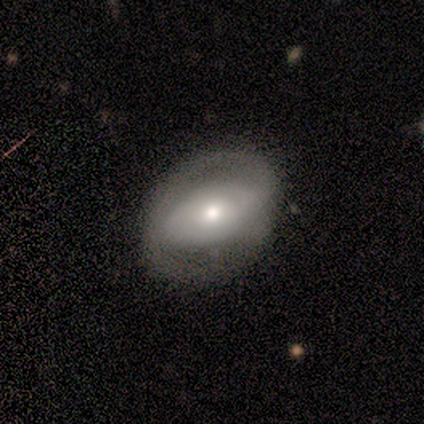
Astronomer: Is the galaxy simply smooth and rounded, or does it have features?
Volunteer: featured or disk — 80%.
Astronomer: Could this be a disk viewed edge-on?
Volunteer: no — 100%.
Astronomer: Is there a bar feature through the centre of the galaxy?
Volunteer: no — 75%.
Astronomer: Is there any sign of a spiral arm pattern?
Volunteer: yes — 75%.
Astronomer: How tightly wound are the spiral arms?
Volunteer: tight — 67%.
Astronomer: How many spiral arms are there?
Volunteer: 2 — 67%.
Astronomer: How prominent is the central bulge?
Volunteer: moderate — 75%.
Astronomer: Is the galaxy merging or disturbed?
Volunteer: none — 60%.